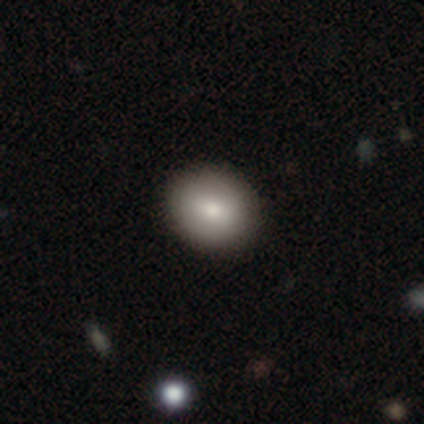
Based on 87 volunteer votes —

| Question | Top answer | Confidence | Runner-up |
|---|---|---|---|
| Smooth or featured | smooth | 90% | featured or disk (8%) |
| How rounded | round | 67% | in between (33%) |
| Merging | none | 91% | minor disturbance (7%) |